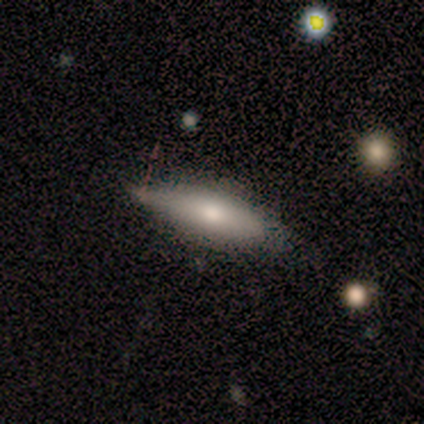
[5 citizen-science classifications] smooth 80%, featured or disk 20%, star or artifact 0%. Down the decision tree: how rounded — cigar-shaped (75%); merging — minor disturbance (60%).